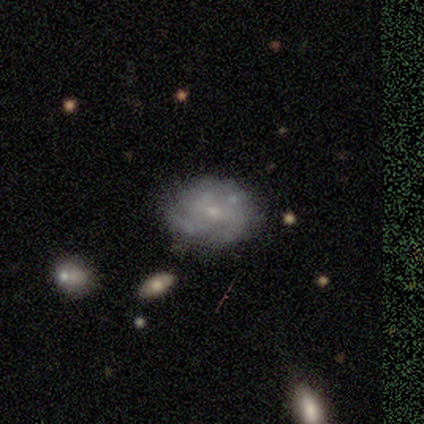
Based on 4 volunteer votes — Q: Smooth or featured?
A: smooth (50%); tied with: star or artifact (50%)
Q: How rounded?
A: in between (100%)
Q: Merging?
A: none (100%)